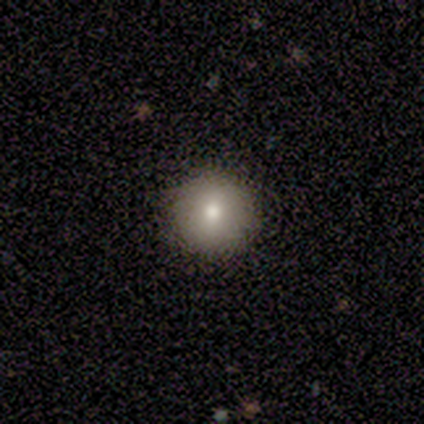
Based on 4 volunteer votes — Overall: smooth (75%). How rounded: round (100%). Merging: none (100%).